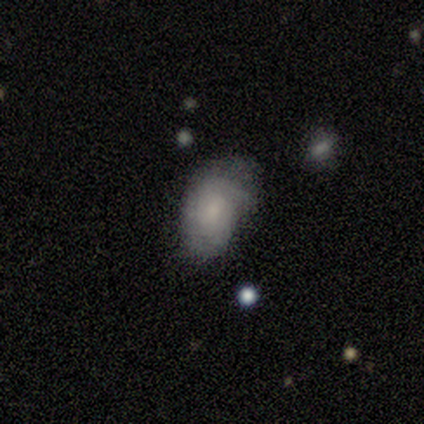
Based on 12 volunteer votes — Overall: smooth (50%, tied with featured or disk). How rounded: in between (100%). Merging: none (58%; minor disturbance 25%).